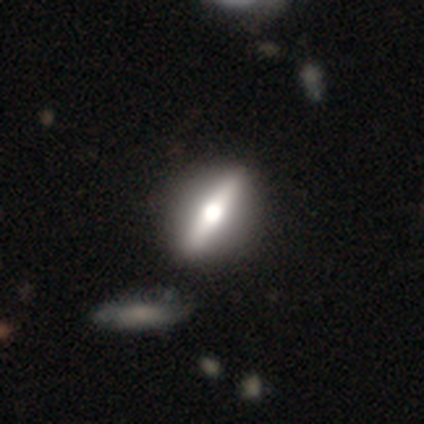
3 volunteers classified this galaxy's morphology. featured or disk 67%, smooth 33%, star or artifact 0%. Down the decision tree: edge-on disk — yes (100%); edge-on bulge — rounded (100%); merging — none (100%).